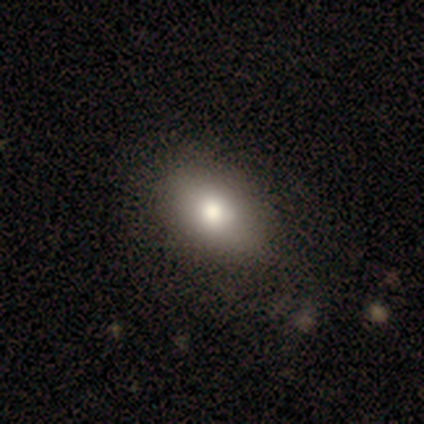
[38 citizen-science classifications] smooth 82%, featured or disk 11%, star or artifact 8%. Down the decision tree: how rounded — in between (84%); merging — none (66%).